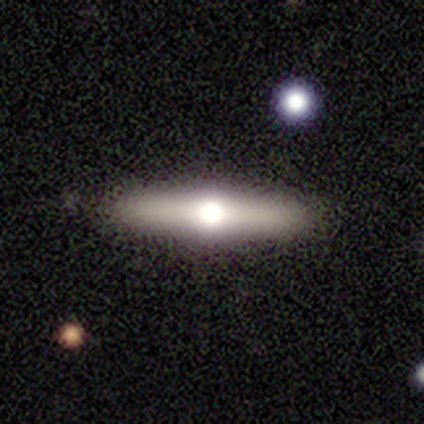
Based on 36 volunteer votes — Morphology: type=featured or disk (50%); edge-on=yes (94%); edge-on bulge=rounded (94%); merging=none (89%).